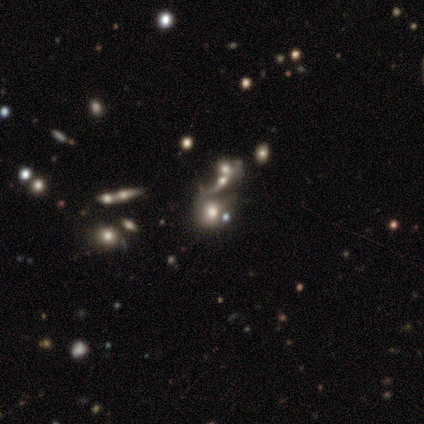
Smooth or featured?
  - smooth: 60% *
  - star or artifact: 40%
  - featured or disk: 0%
How rounded?
  - round: 100% *
  - in between: 0%
  - cigar-shaped: 0%
Merging?
  - none: 67% *
  - merger: 33%
  - minor disturbance: 0%
  - major disturbance: 0%